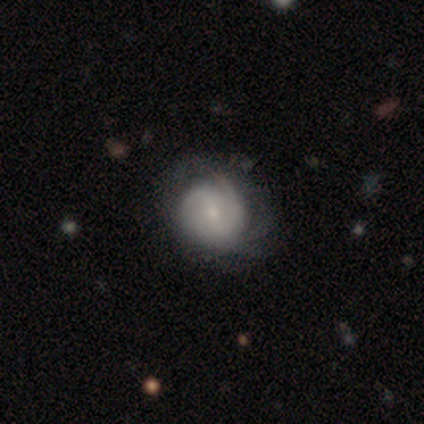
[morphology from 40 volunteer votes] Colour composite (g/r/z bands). It shows a featured or disk galaxy (62%) with no bar (56%), 2 (41%) tight (55%) spiral arms (88%) and a small central bulge (88%). Merging: none (56%).